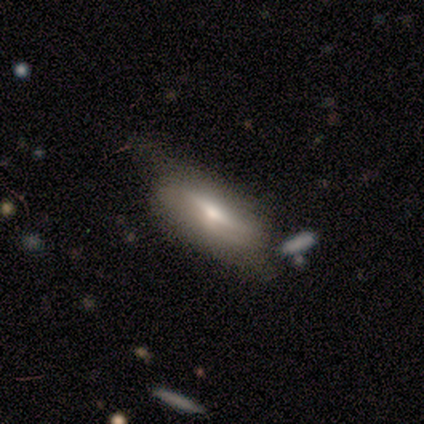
smooth 80%, featured or disk 20%, star or artifact 0%. Down the decision tree: how rounded — in between (75%); merging — none (40%, tied with minor disturbance).